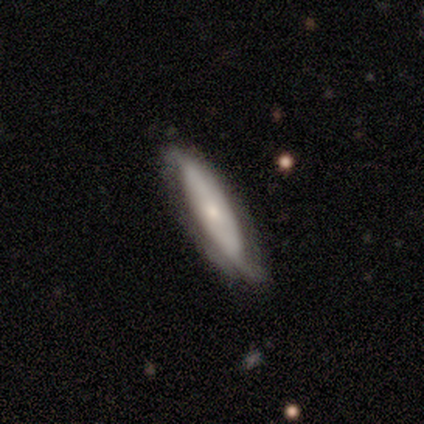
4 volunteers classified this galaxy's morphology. Q: Smooth or featured?
A: featured or disk (100%)
Q: Edge-on disk?
A: no (75%); runner-up: yes (25%)
Q: Bar?
A: no (100%)
Q: Spiral arms?
A: no (100%)
Q: Bulge size?
A: small (100%)
Q: Merging?
A: minor disturbance (75%); runner-up: none (25%)